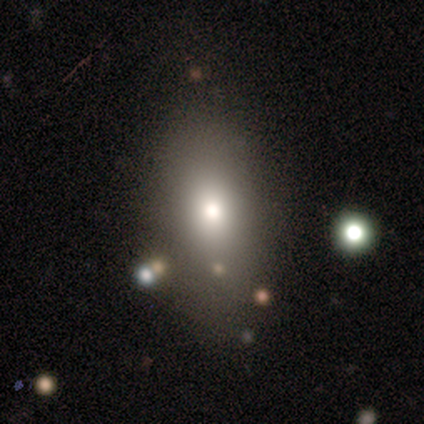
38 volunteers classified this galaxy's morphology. A smooth galaxy with no disk features (79%) that is in between round and cigar-shaped (77%).

Vote fractions:
- Smooth or featured? smooth: 79% / featured or disk: 13% / star or artifact: 8%
- How rounded? in between: 77% / cigar-shaped: 13% / round: 10%
- Merging? none: 71% / minor disturbance: 14% / major disturbance: 14% / merger: 0%